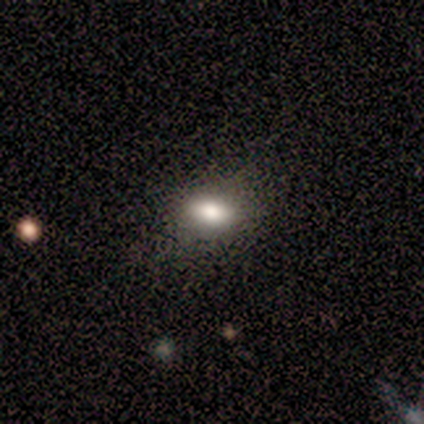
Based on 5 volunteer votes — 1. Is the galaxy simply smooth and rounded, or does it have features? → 80% smooth, 20% star or artifact, 0% featured or disk.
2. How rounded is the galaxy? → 100% in between, 0% round, 0% cigar-shaped.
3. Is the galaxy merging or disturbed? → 75% none, 25% minor disturbance, 0% major disturbance, 0% merger.